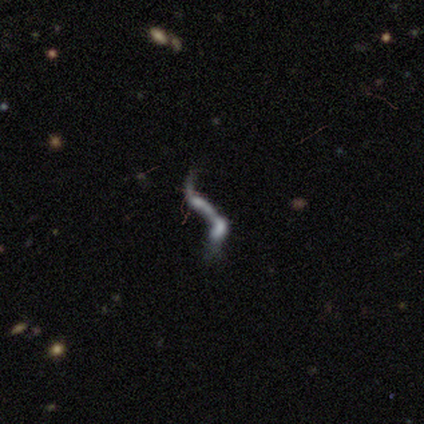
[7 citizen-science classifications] Smooth or featured?
  - featured or disk: 57% *
  - star or artifact: 29%
  - smooth: 14%
Edge-on disk?
  - no: 75% *
  - yes: 25%
Bar?
  - no: 67% *
  - strong: 33%
  - weak: 0%
Spiral arms?
  - yes: 100% *
  - no: 0%
Spiral winding?
  - loose: 100% *
  - tight: 0%
  - medium: 0%
Spiral arm count?
  - 2: 67% *
  - 1: 33%
  - 3: 0%
  - 4: 0%
  - more than 4: 0%
  - can't tell: 0%
Bulge size?
  - none: 100% *
  - dominant: 0%
  - large: 0%
  - moderate: 0%
  - small: 0%
Merging?
  - merger: 40% *
  - none: 20%
  - minor disturbance: 20%
  - major disturbance: 20%